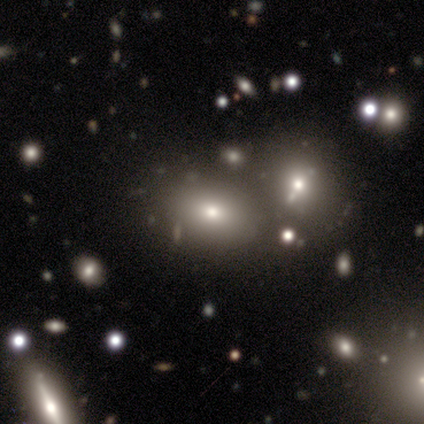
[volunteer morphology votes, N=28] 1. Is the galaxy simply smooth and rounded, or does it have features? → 57% smooth, 25% featured or disk, 18% star or artifact.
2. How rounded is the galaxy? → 88% in between, 12% round, 0% cigar-shaped.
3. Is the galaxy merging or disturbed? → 61% none, 30% merger, 9% minor disturbance, 0% major disturbance.